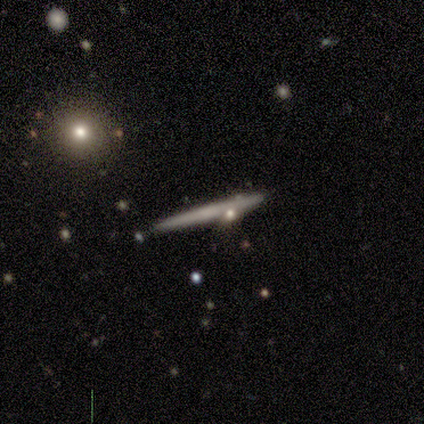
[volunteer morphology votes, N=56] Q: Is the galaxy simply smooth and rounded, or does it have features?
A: featured or disk — 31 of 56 (55%).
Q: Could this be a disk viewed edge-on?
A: yes — 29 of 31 (94%).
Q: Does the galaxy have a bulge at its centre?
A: none — 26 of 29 (90%).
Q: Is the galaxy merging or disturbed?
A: none — 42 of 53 (79%).